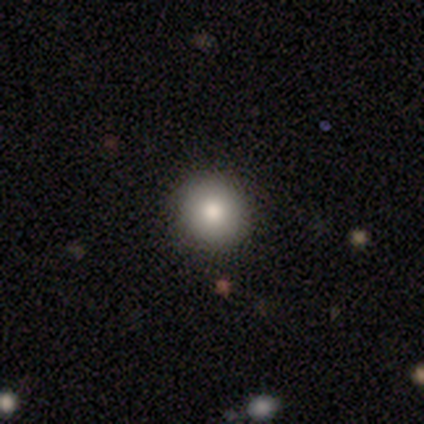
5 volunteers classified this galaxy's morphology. type=smooth (100%); roundness=round (100%); merging=none (100%).